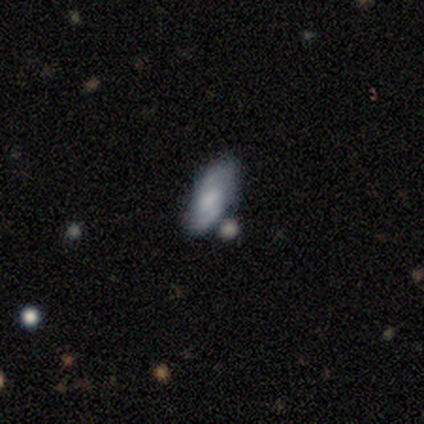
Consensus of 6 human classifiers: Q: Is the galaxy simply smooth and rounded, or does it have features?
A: smooth — 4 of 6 (67%).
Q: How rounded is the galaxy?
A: in between — 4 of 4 (100%).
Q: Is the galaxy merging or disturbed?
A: none — 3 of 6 (50%).